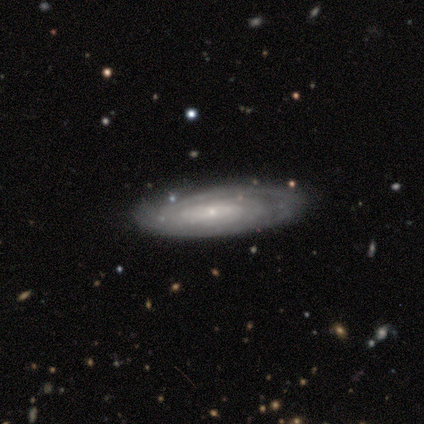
Overall: smooth (67%; featured or disk 33%). How rounded: in between (100%). Merging: none (50%; minor disturbance 33%).